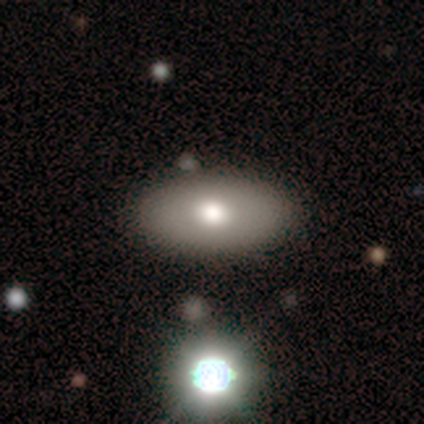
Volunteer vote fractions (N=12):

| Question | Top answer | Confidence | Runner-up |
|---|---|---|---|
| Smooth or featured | smooth | 83% | featured or disk (17%) |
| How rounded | in between | 100% | — |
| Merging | none | 83% | minor disturbance (8%) |